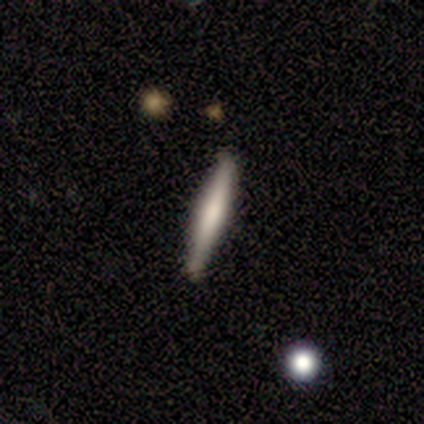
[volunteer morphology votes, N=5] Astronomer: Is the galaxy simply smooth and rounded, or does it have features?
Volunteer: smooth — 60% (runner-up: featured or disk, 40%).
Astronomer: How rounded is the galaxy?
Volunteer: cigar-shaped — 100%.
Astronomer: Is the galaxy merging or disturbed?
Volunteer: none — 80%.